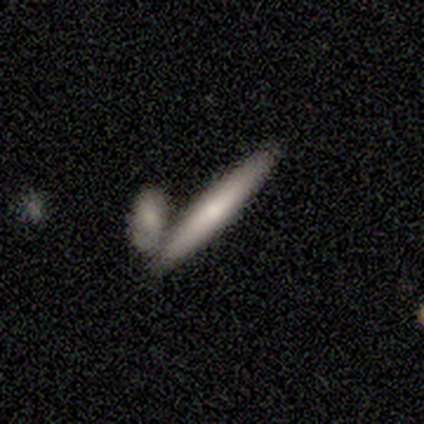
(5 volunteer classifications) Q: Smooth or featured?
A: smooth (80%); runner-up: featured or disk (20%)
Q: How rounded?
A: cigar-shaped (100%)
Q: Merging?
A: none (80%); runner-up: merger (20%)